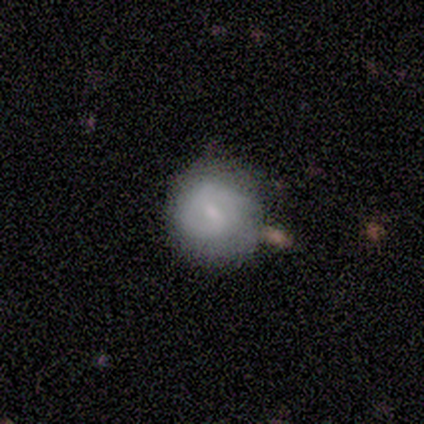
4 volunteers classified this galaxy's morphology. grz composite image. It shows a smooth galaxy with no disk features (50%) that is round (100%). Merging: none (100%).